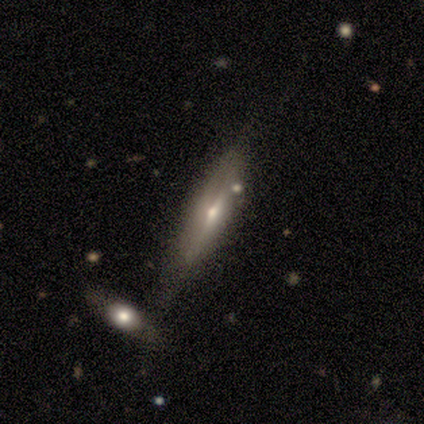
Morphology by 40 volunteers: This appears to be a featured or disk galaxy (65%) viewed edge-on (92%) with a rounded central bulge (88%). Merging: none (38%).